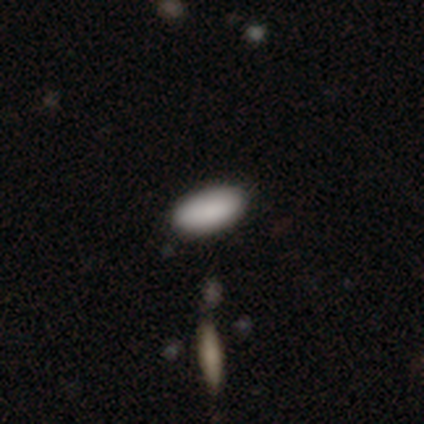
This appears to be a smooth galaxy with no disk features (75%) that is in between round and cigar-shaped (67%). Merging: none (100%).